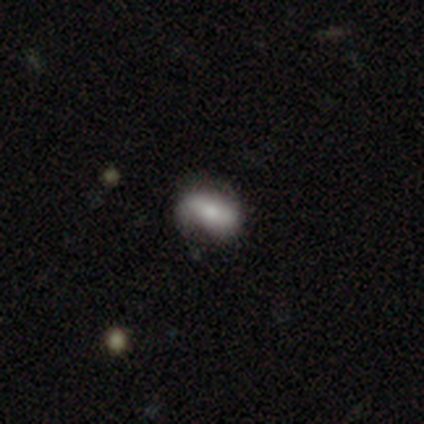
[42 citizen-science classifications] Overall: smooth (45%; featured or disk 43%). How rounded: in between (100%). Merging: none (57%; minor disturbance 24%).